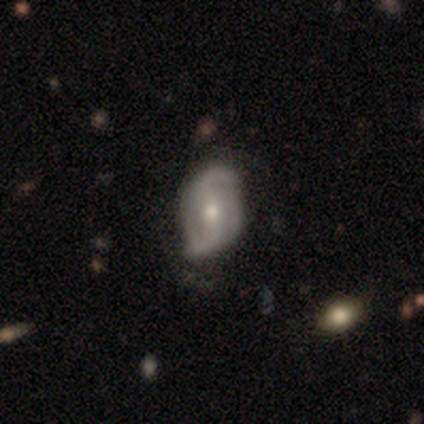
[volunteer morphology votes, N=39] Overall: featured or disk (85%). Edge-on disk: no (97%). Bar: weak (38%; no 34%). Spiral arms: yes (97%). Spiral arm count: 2 (84%). Spiral winding: loose (58%; medium 35%). Bulge size: moderate (44%, tied with small). Merging: none (56%).